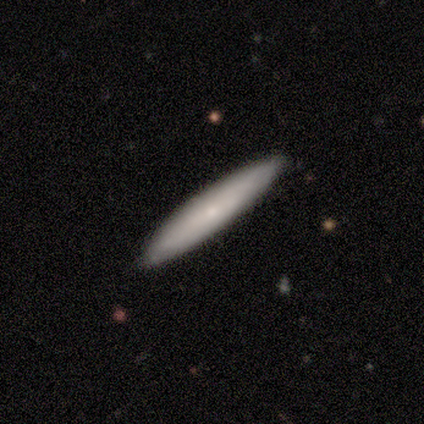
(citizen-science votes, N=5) This appears to be a smooth galaxy with no disk features (60%) that is cigar-shaped (100%). Merging: none (100%).